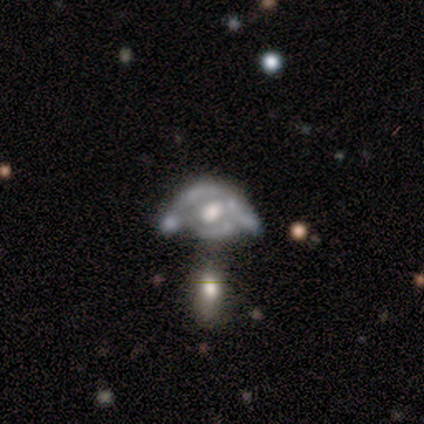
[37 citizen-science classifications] Smooth or featured: featured or disk — 89% (smooth — 5%)
Edge-on disk: no — 100%
Bar: no — 73% (weak — 24%)
Spiral arms: no — 79% (yes — 21%)
Bulge size: moderate — 64% (large — 24%)
Merging: major disturbance — 40% (merger — 34%)